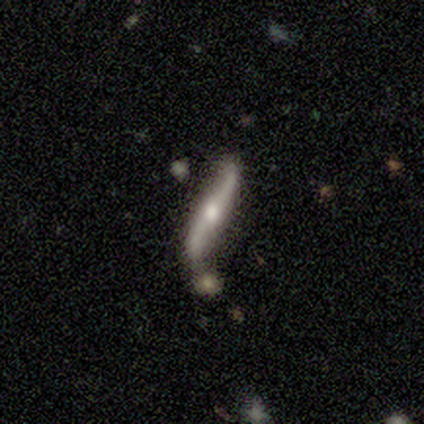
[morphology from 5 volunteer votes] This appears to be a featured or disk galaxy (80%) viewed edge-on (50%, tied with no) with a rounded central bulge (100%). Merging: minor disturbance (40%).